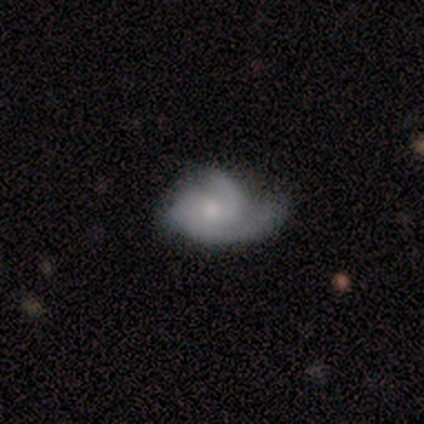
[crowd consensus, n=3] Smooth or featured? featured or disk (67%)
Edge-on disk? no (100%)
Bar? weak (50%, tied with no)
Spiral arms? yes (100%)
Spiral winding? tight (100%)
Spiral arm count? 2 (50%, tied with can't tell)
Bulge size? moderate (50%, tied with small)
Merging? none (33%, tied with minor disturbance and major disturbance)